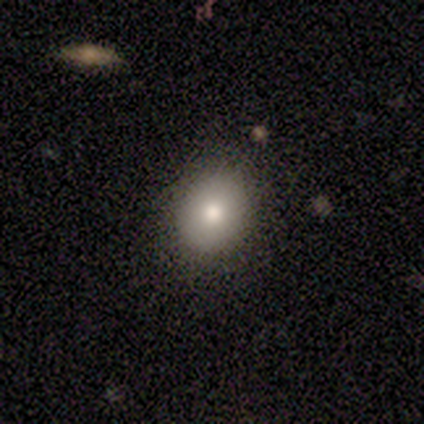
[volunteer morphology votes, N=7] Smooth or featured?
  - smooth: 57% *
  - featured or disk: 29%
  - star or artifact: 14%
How rounded?
  - in between: 75% *
  - round: 25%
  - cigar-shaped: 0%
Merging?
  - none: 83% *
  - minor disturbance: 17%
  - major disturbance: 0%
  - merger: 0%